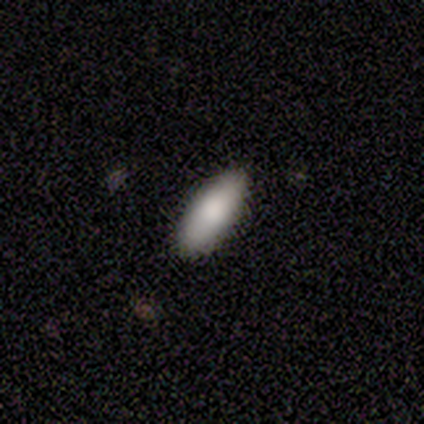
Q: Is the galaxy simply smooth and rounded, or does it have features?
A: smooth — 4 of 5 (80%).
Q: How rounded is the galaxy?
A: in between — 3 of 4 (75%).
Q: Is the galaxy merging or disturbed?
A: none — 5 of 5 (100%).